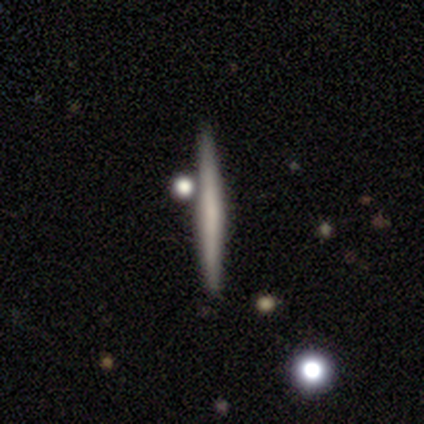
Q: Smooth or featured?
A: smooth (45%); runner-up: featured or disk (42%)
Q: How rounded?
A: cigar-shaped (100%)
Q: Merging?
A: none (71%); runner-up: minor disturbance (20%)